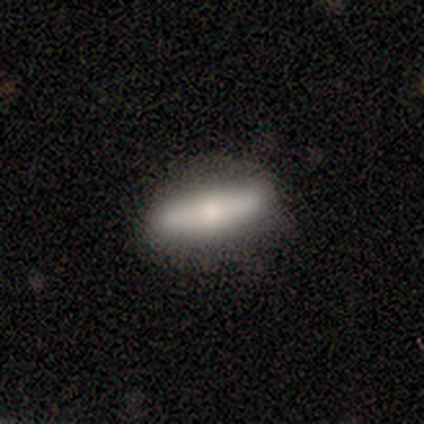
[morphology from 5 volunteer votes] Smooth or featured? smooth (80%)
How rounded? cigar-shaped (75%)
Merging? none (100%)